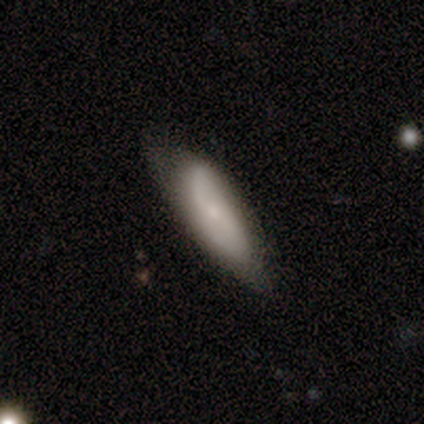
Q: Smooth or featured?
A: smooth (54%); runner-up: featured or disk (46%)
Q: How rounded?
A: in between (71%); runner-up: cigar-shaped (29%)
Q: Merging?
A: none (56%); runner-up: minor disturbance (36%)